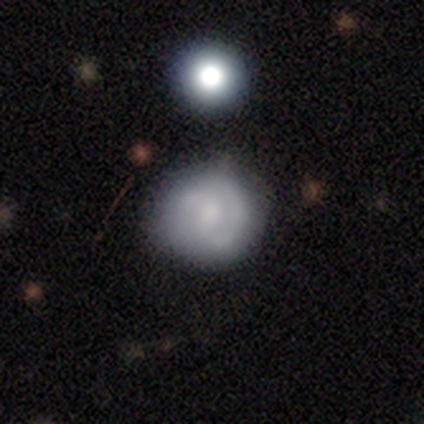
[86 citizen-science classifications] Volunteers were most divided on "smooth or featured": smooth: 50%, featured or disk: 44%, star or artifact: 6%. More confident: how rounded — round (91%); merging — none (67%).